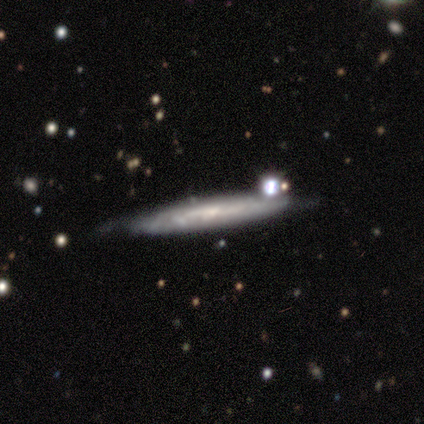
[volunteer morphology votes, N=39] smooth-or-featured: featured or disk: 59% | smooth: 33% | star or artifact: 8%
  disk-edge-on: yes: 74% | no: 26%
    edge-on-bulge: none: 88% | rounded: 12% | boxy: 0%
  merging: none: 50% | minor disturbance: 42% | merger: 8% | major disturbance: 0%